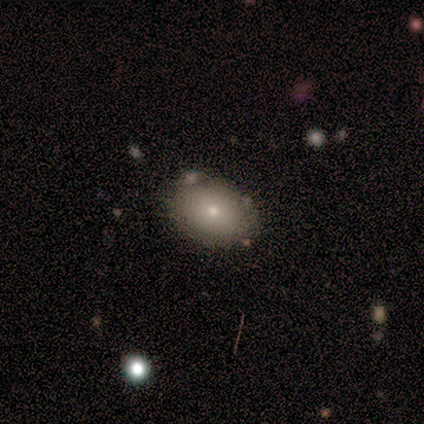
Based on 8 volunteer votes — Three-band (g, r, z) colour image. It shows a smooth galaxy with no disk features (88%) that is round (57%). Merging: none (62%).